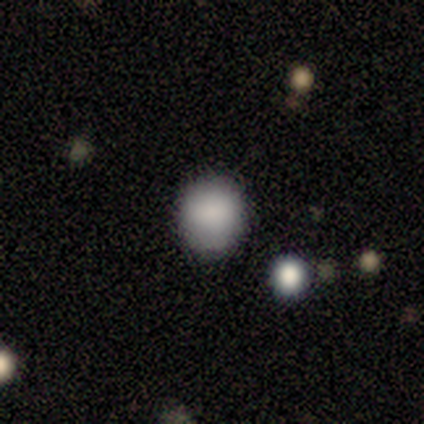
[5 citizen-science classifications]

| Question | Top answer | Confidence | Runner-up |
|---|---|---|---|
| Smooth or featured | smooth | 100% | — |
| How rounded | round | 80% | in between (20%) |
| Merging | none | 60% | minor disturbance (40%) |